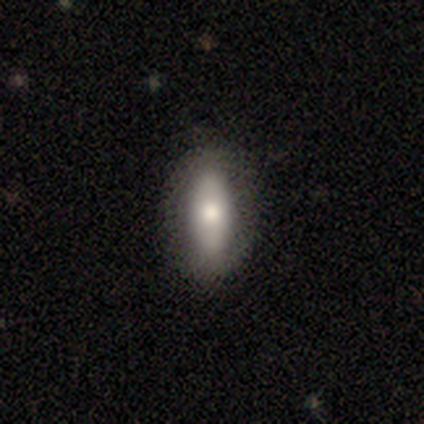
Smooth or featured? smooth (68%)
How rounded? in between (65%)
Merging? none (89%)